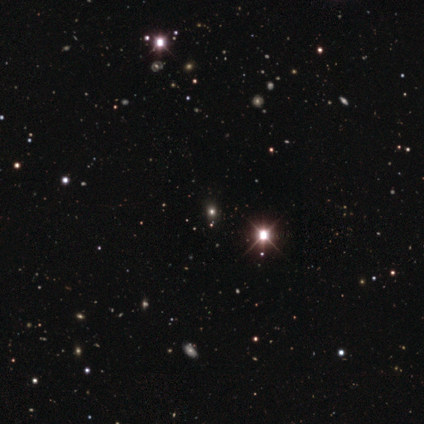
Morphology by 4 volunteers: star or artifact 75%, smooth 25%, featured or disk 0%.